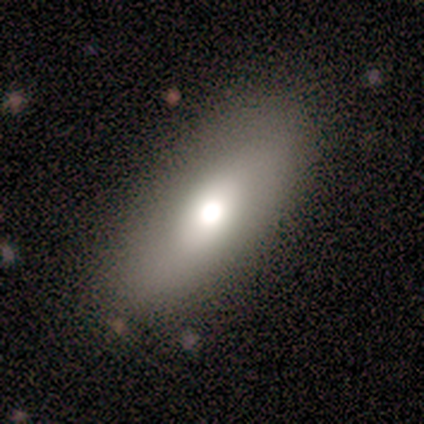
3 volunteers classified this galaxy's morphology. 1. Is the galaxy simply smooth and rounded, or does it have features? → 67% smooth, 33% featured or disk, 0% star or artifact.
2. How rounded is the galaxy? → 100% in between, 0% round, 0% cigar-shaped.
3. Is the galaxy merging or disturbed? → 67% none, 33% minor disturbance, 0% major disturbance, 0% merger.